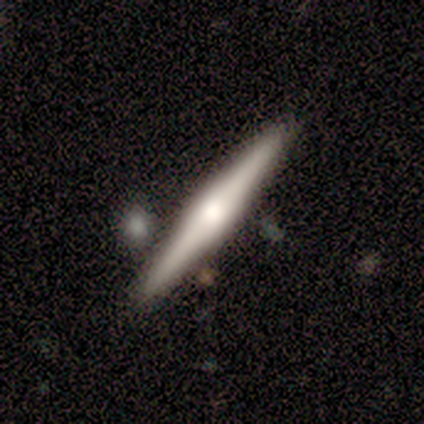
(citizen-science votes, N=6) Smooth or featured: featured or disk — 67% (smooth — 17%)
Edge-on disk: yes — 100%
Edge-on bulge: rounded — 75% (boxy — 25%)
Merging: none — 80% (minor disturbance — 20%)